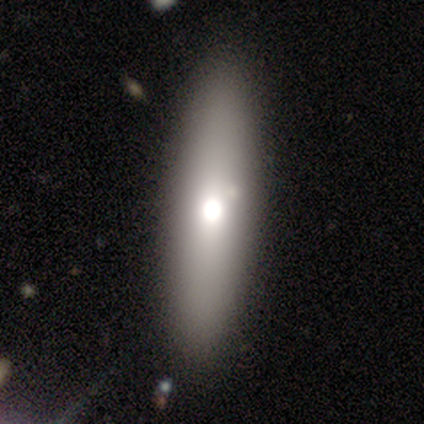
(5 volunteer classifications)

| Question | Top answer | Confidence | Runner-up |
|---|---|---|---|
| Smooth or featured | featured or disk | 60% | smooth (40%) |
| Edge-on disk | yes | 67% | no (33%) |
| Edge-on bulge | rounded | 100% | — |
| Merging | none | 80% | minor disturbance (20%) |